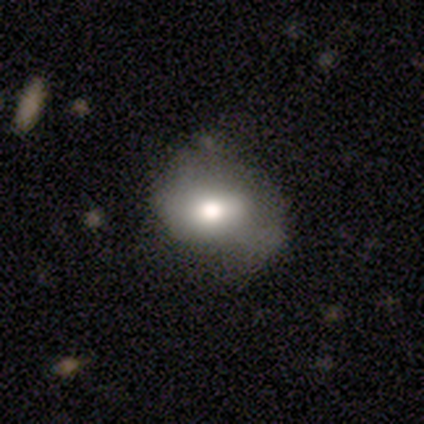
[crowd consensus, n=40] Smooth or featured? smooth (75%)
How rounded? in between (73%)
Merging? minor disturbance (38%)